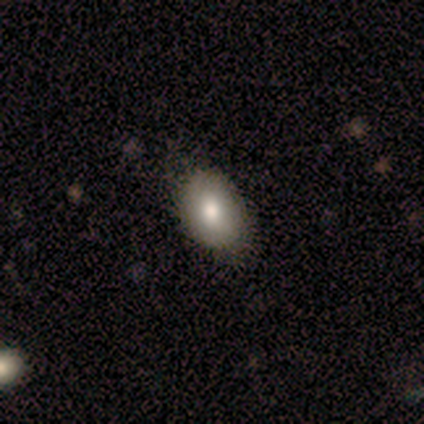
Q: Smooth or featured?
A: smooth (71%); runner-up: featured or disk (14%)
Q: How rounded?
A: in between (100%)
Q: Merging?
A: none (67%); runner-up: minor disturbance (17%)